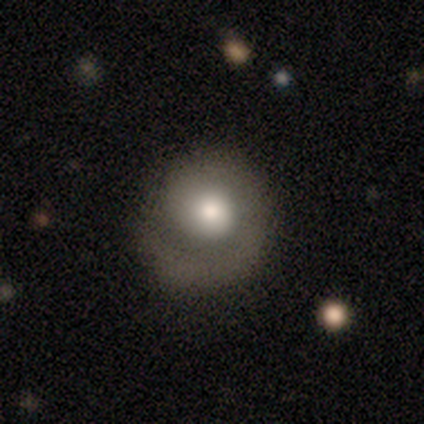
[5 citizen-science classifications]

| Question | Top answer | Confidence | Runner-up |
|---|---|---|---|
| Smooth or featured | smooth | 40% | tied: featured or disk (40%) |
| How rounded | round | 100% | — |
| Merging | major disturbance | 50% | none (25%) |